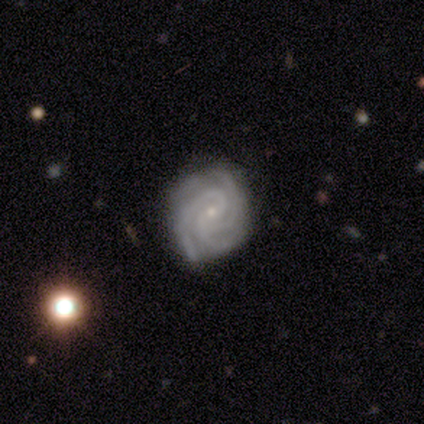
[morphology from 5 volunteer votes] Smooth or featured? 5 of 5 (100%) said featured or disk. Edge-on disk? 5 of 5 (100%) said no. Bar? 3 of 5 (60%) said no. Spiral arms? 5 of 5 (100%) said yes. Spiral winding? 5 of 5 (100%) said tight. Spiral arm count? 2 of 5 (40%, tied with more than 4) said 3. Bulge size? 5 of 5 (100%) said small. Merging? 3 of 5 (60%) said none.